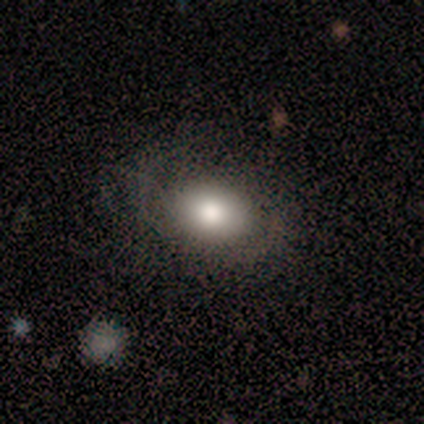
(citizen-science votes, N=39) A smooth galaxy with no disk features (67%) that is in between round and cigar-shaped (58%).

Vote fractions:
- Smooth or featured? smooth: 67% / featured or disk: 26% / star or artifact: 8%
- How rounded? in between: 58% / round: 42% / cigar-shaped: 0%
- Merging? none: 72% / minor disturbance: 22% / major disturbance: 6% / merger: 0%